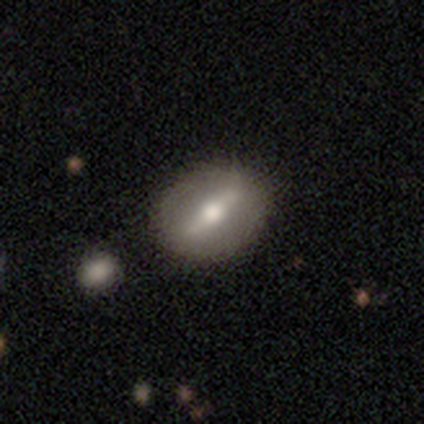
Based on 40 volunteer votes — Volunteers were most divided on "merging": none: 42%, minor disturbance: 10%, merger: 5%, major disturbance: 0%. More confident: spiral arms — no (95%); bar — strong (90%); bulge size — moderate (86%); smooth or featured — featured or disk (72%); edge-on disk — no (72%).